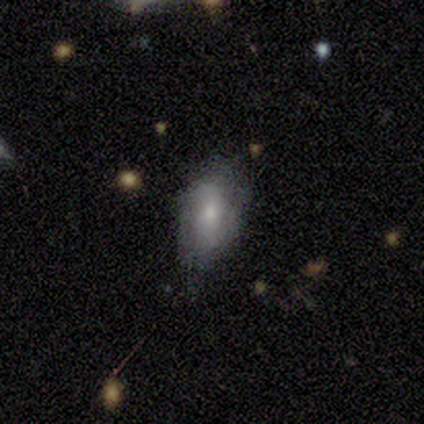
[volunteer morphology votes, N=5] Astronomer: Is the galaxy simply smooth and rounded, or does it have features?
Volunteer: smooth — 60% (runner-up: featured or disk, 40%).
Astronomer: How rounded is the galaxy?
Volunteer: in between — 67%.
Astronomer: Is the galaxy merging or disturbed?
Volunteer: minor disturbance — 80%.